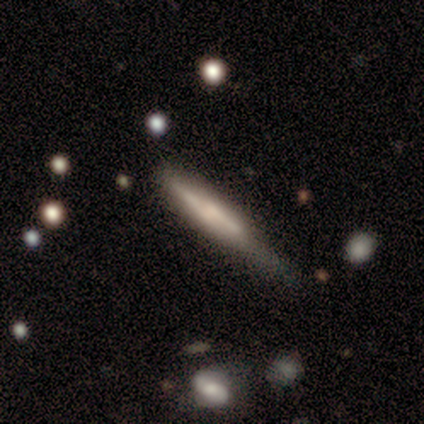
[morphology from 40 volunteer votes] Smooth or featured? 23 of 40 (57%) said featured or disk. Edge-on disk? 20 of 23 (87%) said yes. Edge-on bulge? 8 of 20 (40%, tied with rounded) said none. Merging? 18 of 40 (45%) said minor disturbance.